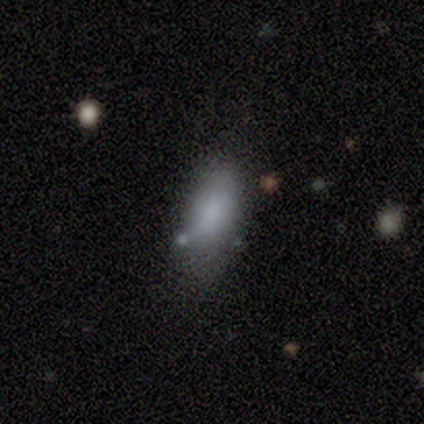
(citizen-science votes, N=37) smooth 84%, featured or disk 11%, star or artifact 5%. Down the decision tree: how rounded — in between (90%); merging — none (46%).